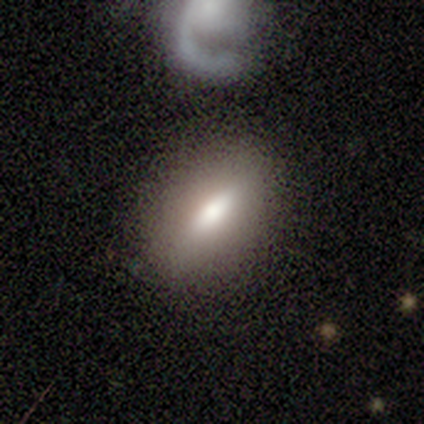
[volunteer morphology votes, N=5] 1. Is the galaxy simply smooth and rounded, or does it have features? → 60% smooth, 40% featured or disk, 0% star or artifact.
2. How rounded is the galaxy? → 67% in between, 33% round, 0% cigar-shaped.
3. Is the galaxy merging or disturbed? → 60% none, 20% minor disturbance, 20% merger, 0% major disturbance.